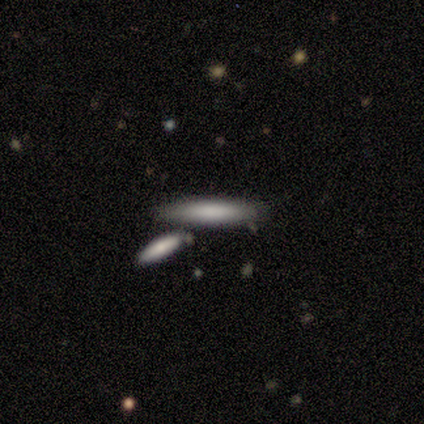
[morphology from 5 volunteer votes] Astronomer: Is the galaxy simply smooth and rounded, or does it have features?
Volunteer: smooth — 100%.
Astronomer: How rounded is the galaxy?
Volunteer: cigar-shaped — 80%.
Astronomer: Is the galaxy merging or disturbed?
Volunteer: none — 60%.